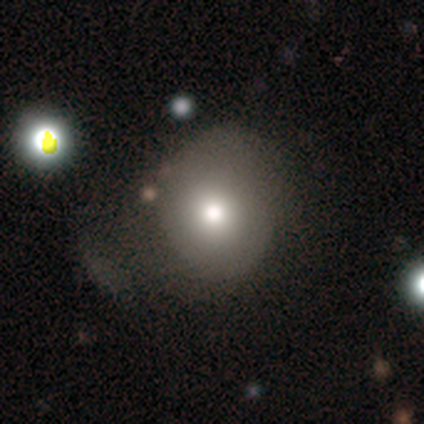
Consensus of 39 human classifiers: Volunteers were most divided on "merging": none: 47%, major disturbance: 24%, minor disturbance: 21%, merger: 9%. More confident: how rounded — round (85%); smooth or featured — smooth (69%).